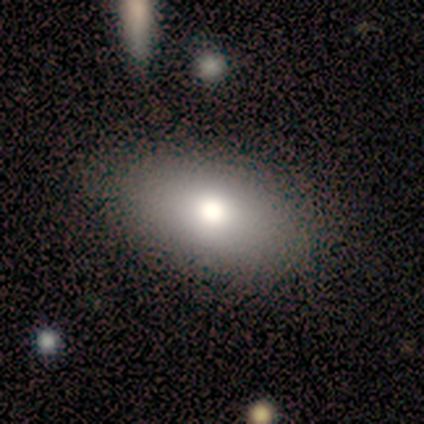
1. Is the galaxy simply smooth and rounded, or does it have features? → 73% smooth, 18% featured or disk, 9% star or artifact.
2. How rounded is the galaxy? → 88% in between, 12% round, 0% cigar-shaped.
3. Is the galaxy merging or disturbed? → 100% none, 0% minor disturbance, 0% major disturbance, 0% merger.